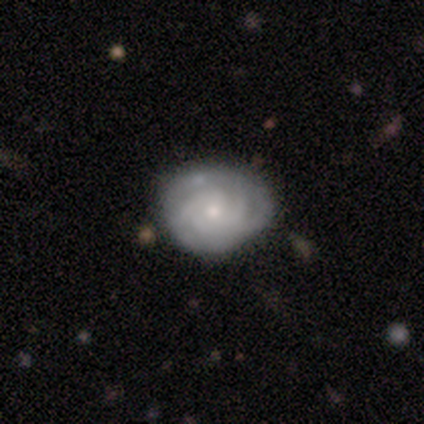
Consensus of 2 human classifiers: This is clearly a featured or disk galaxy (100%). It is clearly not viewed edge-on (100%). Bar: clearly no (100%). Spiral arm pattern: clearly yes (100%). Spiral arm count: clearly can't tell (100%). Spiral winding: possibly medium (50%, tied with loose). Central bulge: clearly small (100%). Merging: clearly none (100%).